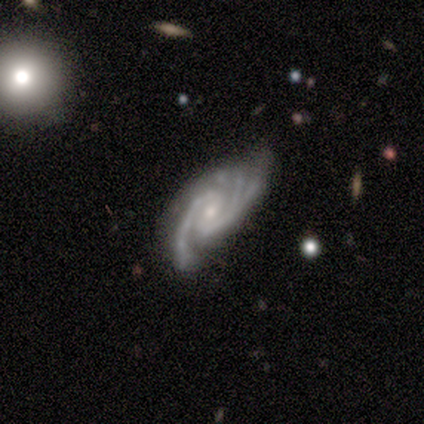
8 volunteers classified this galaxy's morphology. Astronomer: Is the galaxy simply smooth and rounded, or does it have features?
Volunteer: featured or disk — 100%.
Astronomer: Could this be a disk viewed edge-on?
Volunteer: no — 100%.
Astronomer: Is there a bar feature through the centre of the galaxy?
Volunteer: weak — 50% (runner-up: no, 38%).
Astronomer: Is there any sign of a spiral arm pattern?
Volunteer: yes — 100%.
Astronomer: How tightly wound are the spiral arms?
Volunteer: medium — 50% (runner-up: tight, 38%).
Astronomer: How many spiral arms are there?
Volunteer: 2 — 50%, tied with 3 at 50%.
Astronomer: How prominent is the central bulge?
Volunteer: moderate — 50%, tied with small at 50%.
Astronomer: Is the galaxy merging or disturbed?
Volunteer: minor disturbance — 62%.